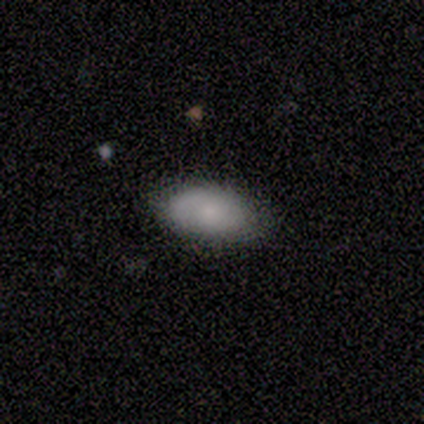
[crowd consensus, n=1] This is clearly a featured or disk galaxy (100%). It is clearly not viewed edge-on (100%). Bar: clearly no (100%). Spiral arm pattern: clearly yes (100%). Spiral arm count: clearly can't tell (100%). Spiral winding: clearly tight (100%). Central bulge: clearly small (100%). Merging: clearly none (100%).